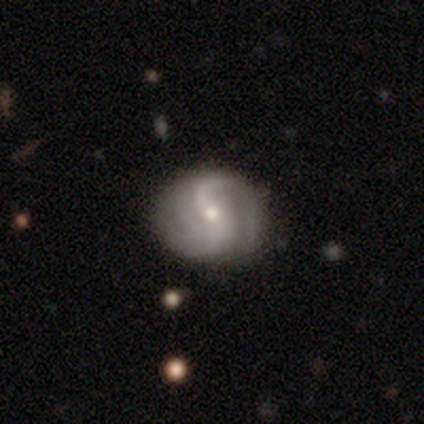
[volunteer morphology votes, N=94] A featured or disk galaxy (87%) with a weak bar (44%), 2 (52%) medium (48%) spiral arms (98%) and a small central bulge (65%).

Vote fractions:
- Smooth or featured? featured or disk: 87% / star or artifact: 9% / smooth: 4%
- Edge-on disk? no: 99% / yes: 1%
- Bar? weak: 44% / no: 42% / strong: 14%
- Spiral arms? yes: 98% / no: 2%
- Spiral winding? medium: 48% / loose: 35% / tight: 16%
- Spiral arm count? 2: 52% / 3: 25% / 4: 9% / can't tell: 9% / 1: 5% / more than 4: 0%
- Bulge size? small: 65% / moderate: 35% / dominant: 0% / large: 0% / none: 0%
- Merging? none: 84% / minor disturbance: 15% / major disturbance: 1% / merger: 0%